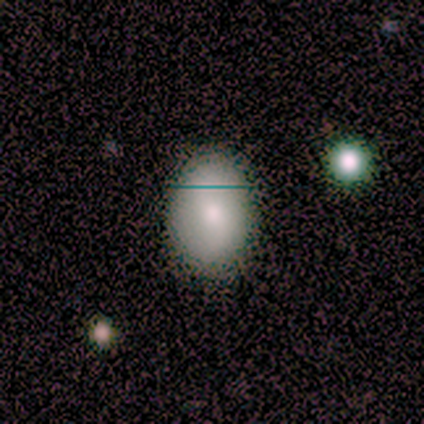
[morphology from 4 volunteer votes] A smooth galaxy with no disk features (100%) that is in between round and cigar-shaped (100%). Merging: none (75%).